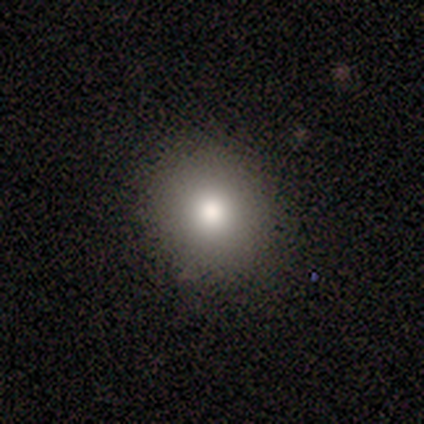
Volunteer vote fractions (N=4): A smooth galaxy with no disk features (50%, tied with star or artifact) that is round (100%).

Vote fractions:
- Smooth or featured? smooth: 50% (tied) / star or artifact: 50% (tied) / featured or disk: 0%
- How rounded? round: 100% / in between: 0% / cigar-shaped: 0%
- Merging? none: 100% / minor disturbance: 0% / major disturbance: 0% / merger: 0%